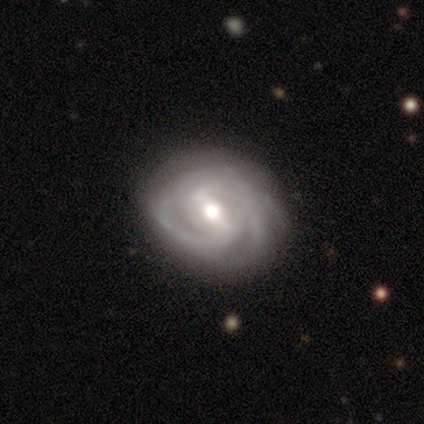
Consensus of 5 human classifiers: A featured or disk galaxy (80%) with a weak bar (50%), 2 (75%) tight (75%) spiral arms (100%) and a moderate central bulge (75%). Merging: major disturbance (50%).